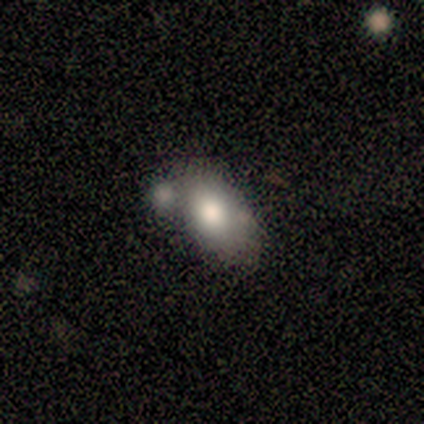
This is likely a smooth galaxy (60%). How rounded: clearly in between (100%). Merging: marginally none (40%, tied with merger).